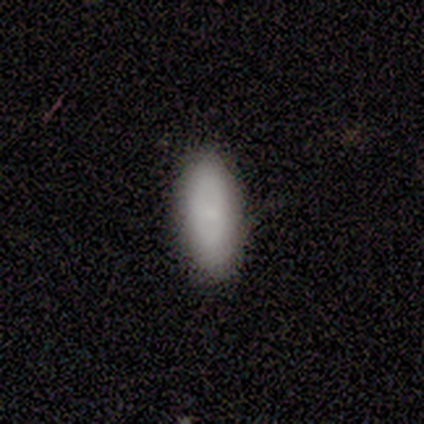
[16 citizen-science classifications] Smooth or featured? 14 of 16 (88%) said smooth. How rounded? 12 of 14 (86%) said in between. Merging? 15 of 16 (94%) said none.